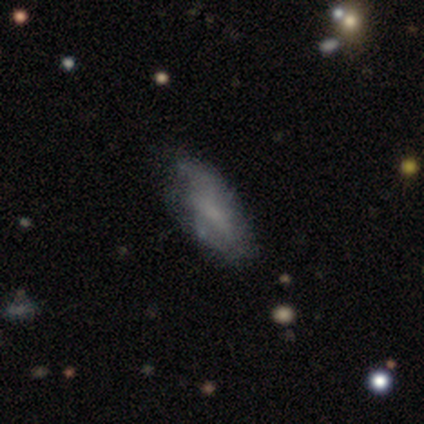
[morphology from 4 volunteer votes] This is likely a featured or disk galaxy (75%). It is clearly not viewed edge-on (100%). Bar: likely no (67%). Spiral arm pattern: likely yes (67%). Spiral arm count: possibly 2 (50%, tied with can't tell). Spiral winding: possibly tight (50%, tied with medium). Central bulge: likely moderate (67%). Merging: possibly none (50%).